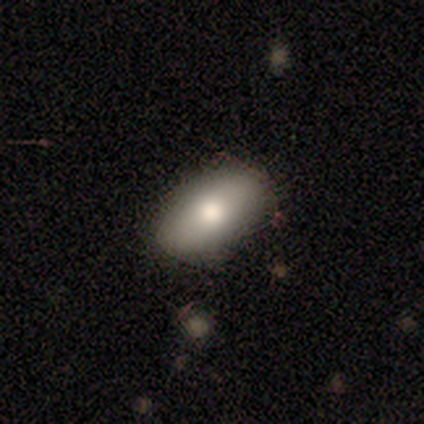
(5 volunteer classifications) Smooth or featured?
  - smooth: 80% *
  - featured or disk: 20%
  - star or artifact: 0%
How rounded?
  - in between: 100% *
  - round: 0%
  - cigar-shaped: 0%
Merging?
  - none: 80% *
  - merger: 20%
  - minor disturbance: 0%
  - major disturbance: 0%